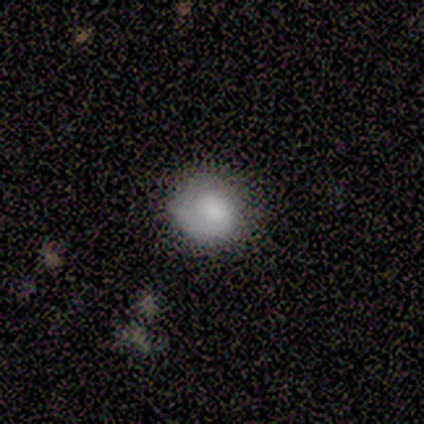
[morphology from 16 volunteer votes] smooth 69%, featured or disk 19%, star or artifact 12%. Down the decision tree: how rounded — round (91%); merging — none (57%).